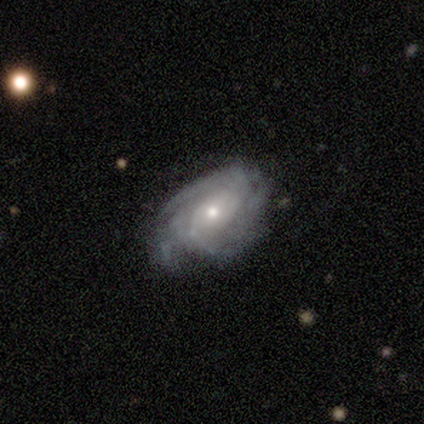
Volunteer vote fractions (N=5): Smooth or featured? featured or disk (100%)
Edge-on disk? no (100%)
Bar? no (80%)
Spiral arms? yes (80%)
Spiral winding? tight (50%, tied with medium)
Spiral arm count? can't tell (50%)
Bulge size? small (60%)
Merging? none (60%)